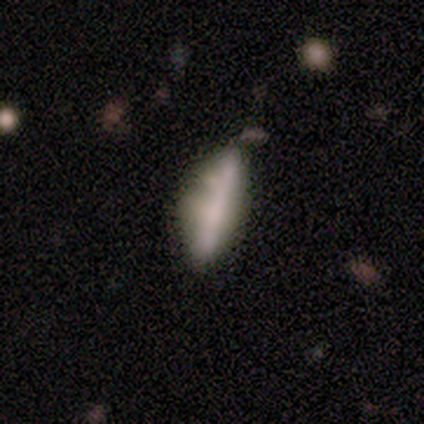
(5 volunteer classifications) smooth-or-featured: featured or disk: 60% | smooth: 40% | star or artifact: 0%
  disk-edge-on: yes: 67% | no: 33%
    edge-on-bulge: none: 50% (tied) | rounded: 50% (tied) | boxy: 0%
  merging: none: 60% | minor disturbance: 40% | major disturbance: 0% | merger: 0%